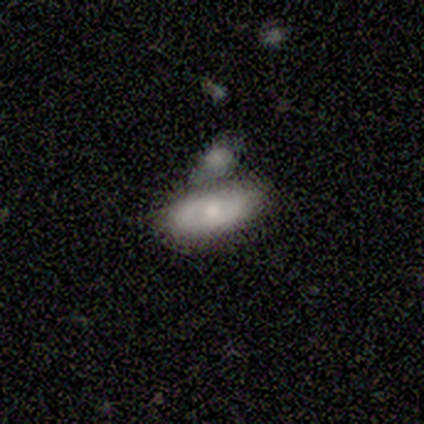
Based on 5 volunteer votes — A smooth galaxy with no disk features (80%) that is in between round and cigar-shaped (100%). Merging: none (60%).